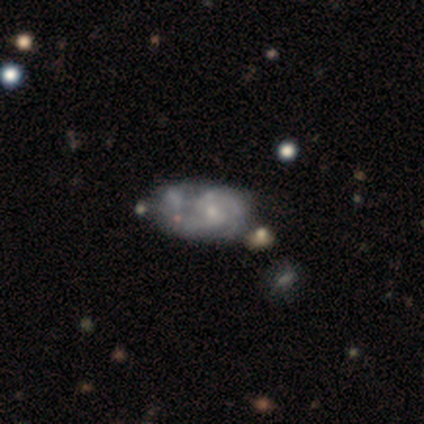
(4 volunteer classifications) A featured or disk galaxy (50%) with no bar (100%), 2 (50%, tied with can't tell) tight (50%, tied with medium) spiral arms (100%) and a small central bulge (100%).

Vote fractions:
- Smooth or featured? featured or disk: 50% / smooth: 25% / star or artifact: 25%
- Edge-on disk? no: 100% / yes: 0%
- Bar? no: 100% / strong: 0% / weak: 0%
- Spiral arms? yes: 100% / no: 0%
- Spiral winding? tight: 50% (tied) / medium: 50% (tied) / loose: 0%
- Spiral arm count? 2: 50% (tied) / can't tell: 50% (tied) / 1: 0% / 3: 0% / 4: 0% / more than 4: 0%
- Bulge size? small: 100% / dominant: 0% / large: 0% / moderate: 0% / none: 0%
- Merging? minor disturbance: 67% / merger: 33% / none: 0% / major disturbance: 0%